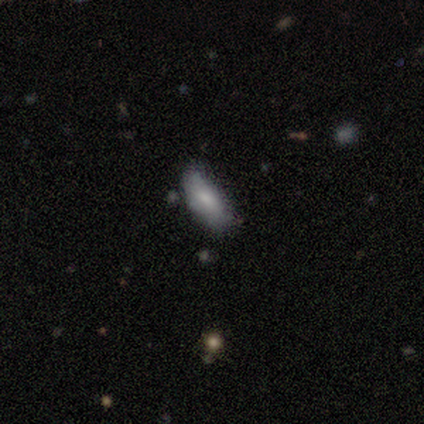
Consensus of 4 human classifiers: Morphology: type=smooth (75%); roundness=in between (67%); merging=minor disturbance (67%).